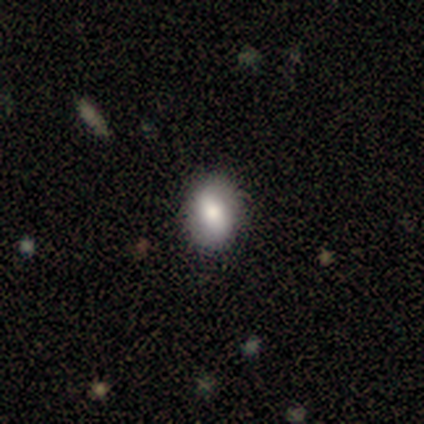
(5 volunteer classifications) Overall: smooth (80%). How rounded: round (75%). Merging: none (100%).